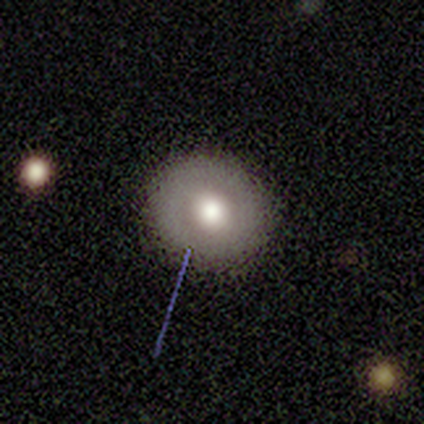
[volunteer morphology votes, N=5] smooth-or-featured: featured or disk: 40% (tied) | star or artifact: 40% (tied) | smooth: 20%
  disk-edge-on: no: 100% | yes: 0%
    bar: weak: 50% (tied) | no: 50% (tied) | strong: 0%
    has-spiral-arms: no: 100% | yes: 0%
    bulge-size: moderate: 100% | dominant: 0% | large: 0% | small: 0% | none: 0%
  merging: none: 100% | minor disturbance: 0% | major disturbance: 0% | merger: 0%